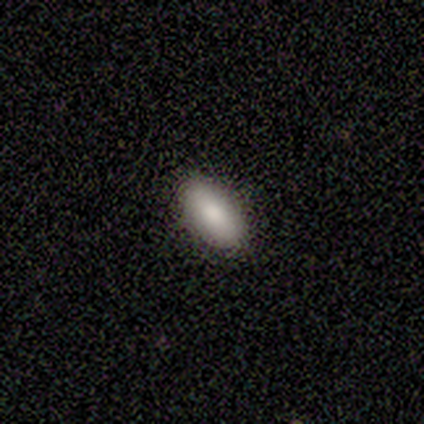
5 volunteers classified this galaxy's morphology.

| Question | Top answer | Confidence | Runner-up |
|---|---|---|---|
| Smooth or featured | smooth | 80% | star or artifact (20%) |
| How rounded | in between | 100% | — |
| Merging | none | 75% | minor disturbance (25%) |